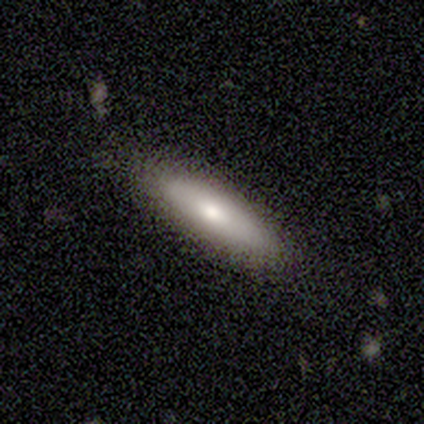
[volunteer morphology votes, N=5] Smooth or featured? 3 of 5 (60%) said smooth. How rounded? 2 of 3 (67%) said cigar-shaped. Merging? 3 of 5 (60%) said none.